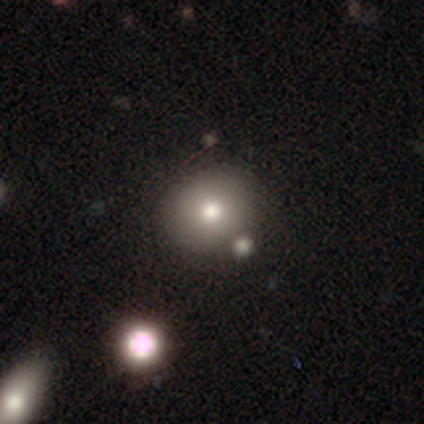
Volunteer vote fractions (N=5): A smooth galaxy with no disk features (80%) that is round (75%). Merging: none (100%).